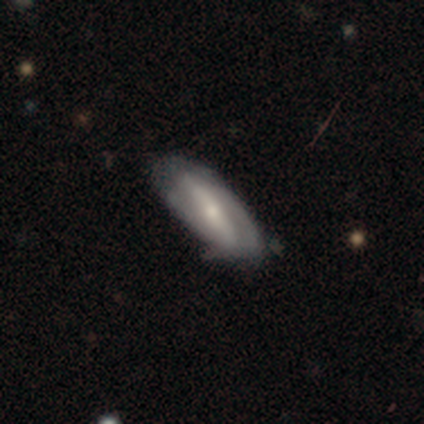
Smooth or featured? featured or disk (79%)
Edge-on disk? no (91%)
Bar? strong (77%)
Spiral arms? yes (63%)
Spiral winding? tight (47%)
Spiral arm count? 2 (58%)
Bulge size? moderate (53%)
Merging? none (48%, tied with minor disturbance)